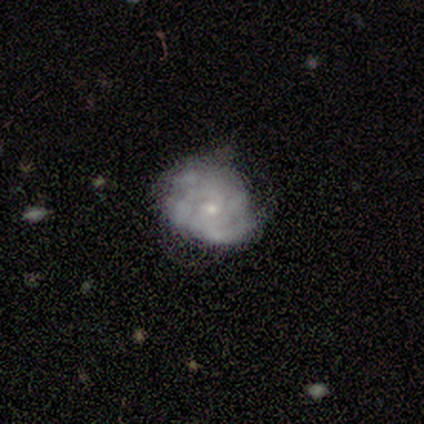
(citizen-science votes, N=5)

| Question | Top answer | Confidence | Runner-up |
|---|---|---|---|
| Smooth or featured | featured or disk | 60% | smooth (40%) |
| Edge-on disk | no | 100% | — |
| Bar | no | 100% | — |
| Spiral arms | no | 67% | yes (33%) |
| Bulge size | small | 67% | none (33%) |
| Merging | minor disturbance | 60% | none (40%) |